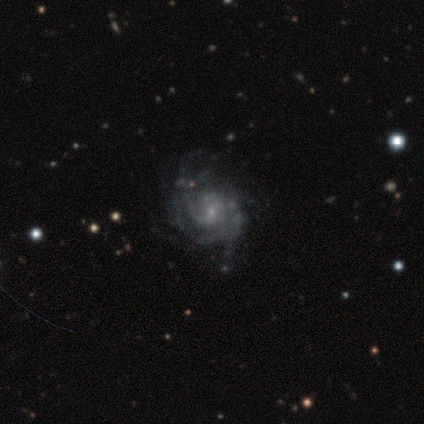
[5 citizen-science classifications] Smooth or featured?
  - featured or disk: 100% *
  - smooth: 0%
  - star or artifact: 0%
Edge-on disk?
  - no: 100% *
  - yes: 0%
Bar?
  - no: 80% *
  - weak: 20%
  - strong: 0%
Spiral arms?
  - yes: 100% *
  - no: 0%
Spiral winding?
  - medium: 60% *
  - tight: 40%
  - loose: 0%
Spiral arm count?
  - more than 4: 40% *
  - 3: 20%
  - 4: 20%
  - can't tell: 20%
  - 1: 0%
  - 2: 0%
Bulge size?
  - small: 80% *
  - moderate: 20%
  - dominant: 0%
  - large: 0%
  - none: 0%
Merging?
  - none: 40% *
  - minor disturbance: 20%
  - major disturbance: 20%
  - merger: 20%